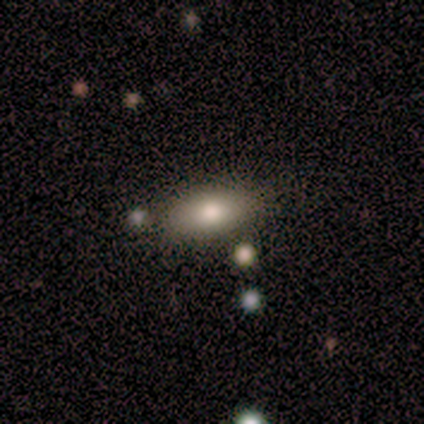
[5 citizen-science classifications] This appears to be a smooth galaxy with no disk features (80%) that is in between round and cigar-shaped (75%). Merging: none (60%).